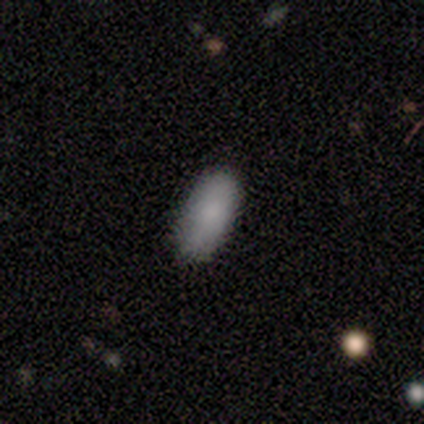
This appears to be a smooth galaxy with no disk features (100%) that is in between round and cigar-shaped (100%). Merging: none (100%).